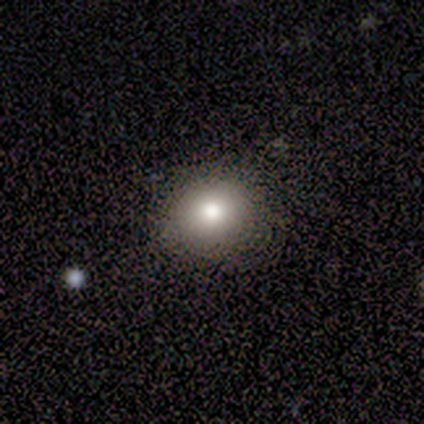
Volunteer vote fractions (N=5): This is clearly a smooth galaxy (100%). How rounded: clearly round (80%). Merging: clearly none (100%).